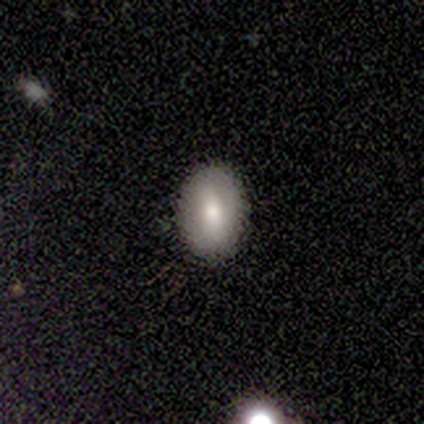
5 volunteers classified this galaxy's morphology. Smooth or featured: smooth — 80% (star or artifact — 20%)
How rounded: in between — 75% (round — 25%)
Merging: none — 100%